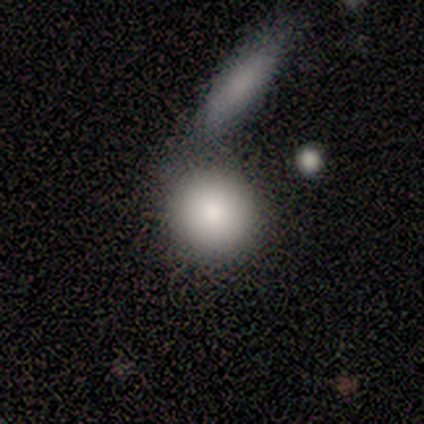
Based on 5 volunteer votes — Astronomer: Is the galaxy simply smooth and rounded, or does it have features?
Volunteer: smooth — 100%.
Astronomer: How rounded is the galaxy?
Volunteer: round — 80%.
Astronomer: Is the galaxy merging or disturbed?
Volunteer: none — 60% (runner-up: merger, 40%).